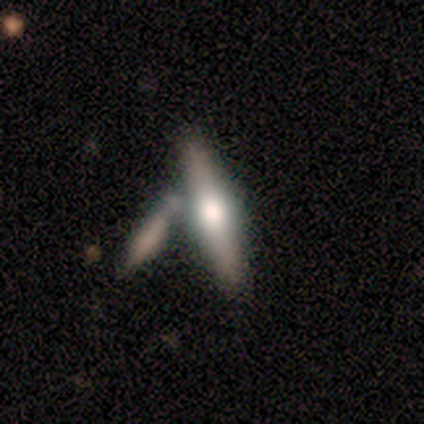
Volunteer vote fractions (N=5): Morphology: type=featured or disk (80%); edge-on=yes (100%); edge-on bulge=rounded (100%); merging=none (60%).